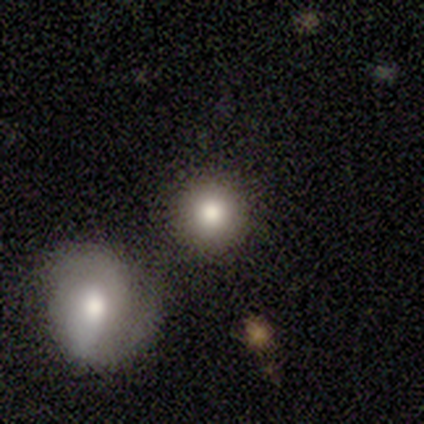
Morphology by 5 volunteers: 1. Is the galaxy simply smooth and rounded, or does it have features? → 80% smooth, 20% star or artifact, 0% featured or disk.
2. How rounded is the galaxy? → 100% round, 0% in between, 0% cigar-shaped.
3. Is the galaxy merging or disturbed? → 75% none, 25% minor disturbance, 0% major disturbance, 0% merger.